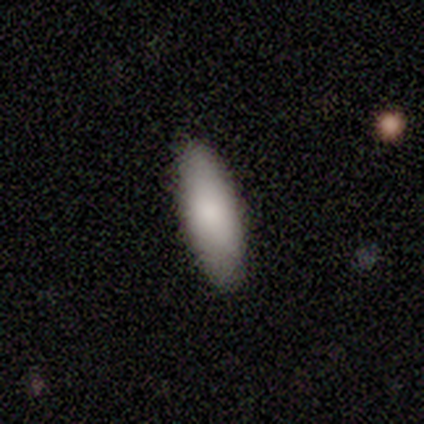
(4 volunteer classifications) Overall: smooth (100%). How rounded: in between (50%, tied with cigar-shaped). Merging: none (100%).